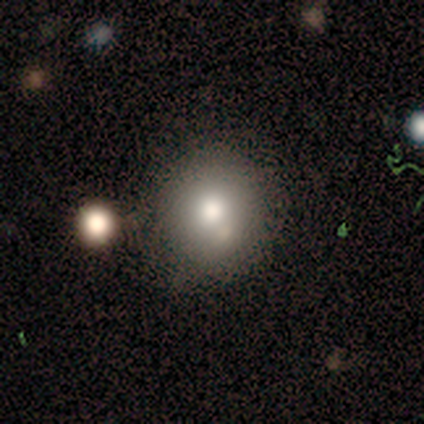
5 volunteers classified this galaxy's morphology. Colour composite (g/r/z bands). It shows a smooth galaxy with no disk features (80%) that is round (100%). Merging: none (100%).